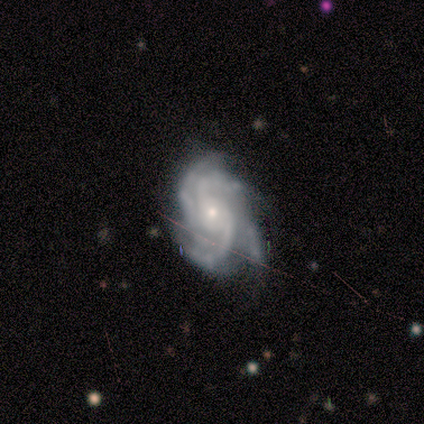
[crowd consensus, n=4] featured or disk 100%, smooth 0%, star or artifact 0%. Down the decision tree: edge-on disk — no (100%); bar — no (75%); spiral arms — yes (100%); spiral arm count — 4 (50%); spiral winding — tight (75%); bulge size — small (100%); merging — none (50%, tied with minor disturbance).